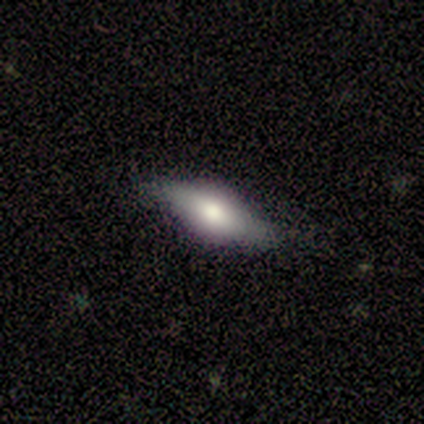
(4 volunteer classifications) Morphology: type=smooth (50%); roundness=in between (100%); merging=none (67%).